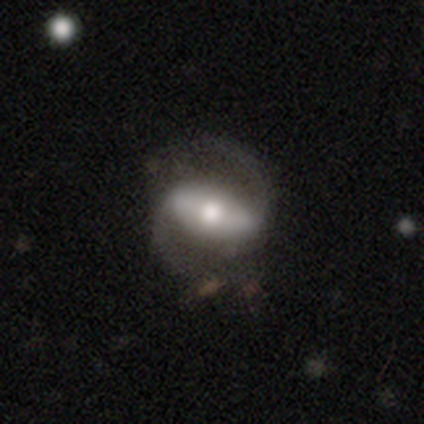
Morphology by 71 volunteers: smooth_or_featured: featured or disk (p=0.87) [alt: smooth p=0.07]
disk_edge_on: no (p=0.95) [alt: yes p=0.05]
bar: strong (p=0.73) [alt: weak p=0.20]
has_spiral_arms: yes (p=0.92) [alt: no p=0.08]
spiral_winding: medium (p=0.54) [alt: loose p=0.30]
spiral_arm_count: 2 (p=0.98) [alt: 1 p=0.02]
bulge_size: moderate (p=0.59) [alt: large p=0.27]
merging: none (p=0.69) [alt: minor disturbance p=0.15]